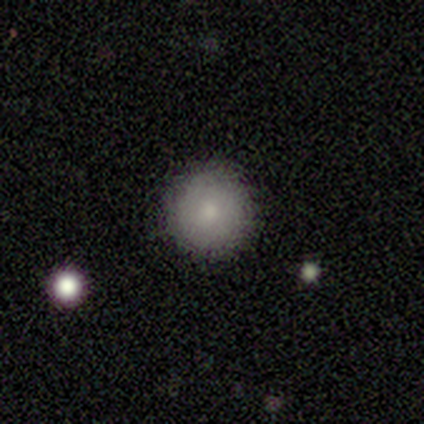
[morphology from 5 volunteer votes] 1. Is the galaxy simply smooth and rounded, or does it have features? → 100% smooth, 0% featured or disk, 0% star or artifact.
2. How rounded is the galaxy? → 100% round, 0% in between, 0% cigar-shaped.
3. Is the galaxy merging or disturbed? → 100% none, 0% minor disturbance, 0% major disturbance, 0% merger.